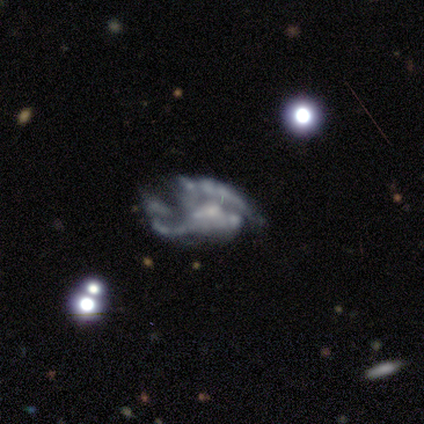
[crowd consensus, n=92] smooth_or_featured: featured or disk (p=0.79) [alt: star or artifact p=0.13]
disk_edge_on: no (p=0.96) [alt: yes p=0.04]
bar: no (p=0.71) [alt: weak p=0.20]
has_spiral_arms: no (p=0.53) [alt: yes p=0.47]
bulge_size: none (p=0.41) [alt: small p=0.40]
merging: major disturbance (p=0.47) [alt: none p=0.29]